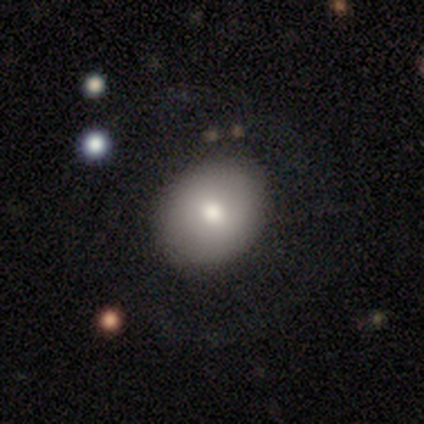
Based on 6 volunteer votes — Smooth or featured: smooth — 33% (tied with featured or disk — 33%; star or artifact — 33%)
How rounded: round — 50% (tied with in between — 50%)
Merging: none — 100%